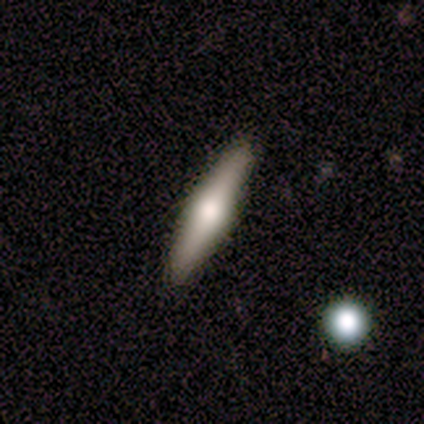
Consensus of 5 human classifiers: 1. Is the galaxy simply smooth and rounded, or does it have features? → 60% smooth, 40% featured or disk, 0% star or artifact.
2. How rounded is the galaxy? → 67% in between, 33% cigar-shaped, 0% round.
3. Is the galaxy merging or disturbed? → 100% none, 0% minor disturbance, 0% major disturbance, 0% merger.